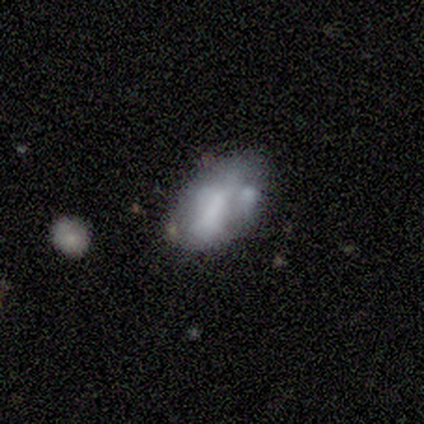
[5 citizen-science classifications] A smooth galaxy with no disk features (40%, tied with star or artifact) that is in between round and cigar-shaped (100%).

Vote fractions:
- Smooth or featured? smooth: 40% (tied) / star or artifact: 40% (tied) / featured or disk: 20%
- How rounded? in between: 100% / round: 0% / cigar-shaped: 0%
- Merging? none: 67% / minor disturbance: 33% / major disturbance: 0% / merger: 0%